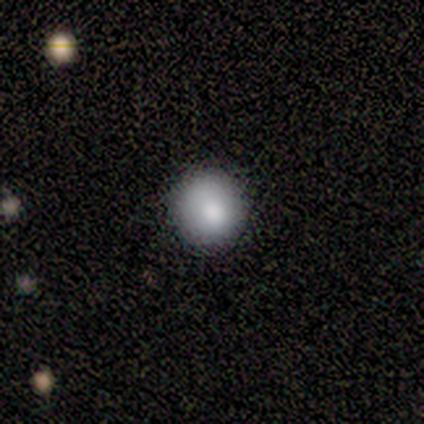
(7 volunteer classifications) Smooth or featured: smooth — 71% (featured or disk — 14%)
How rounded: round — 100%
Merging: none — 83% (minor disturbance — 17%)